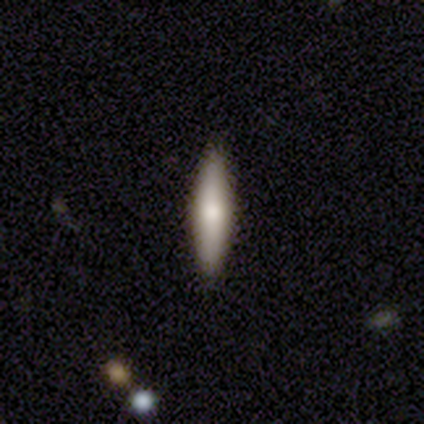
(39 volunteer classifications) A smooth galaxy with no disk features (54%) that is cigar-shaped (86%). Merging: none (89%).